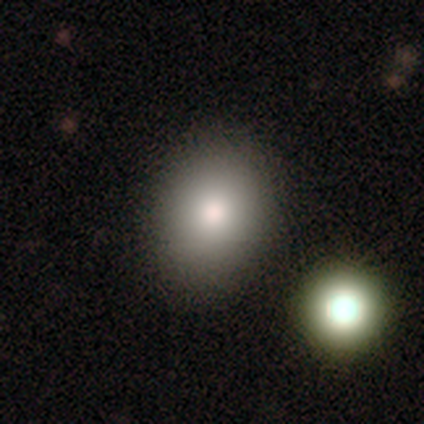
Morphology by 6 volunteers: Volunteers were most divided on "how rounded": round: 60%, in between: 40%, cigar-shaped: 0%. More confident: smooth or featured — smooth (83%); merging — none (60%).